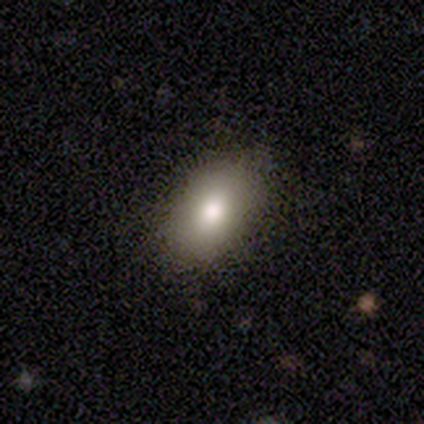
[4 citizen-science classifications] Morphology: type=smooth (75%); roundness=in between (100%); merging=none (100%).